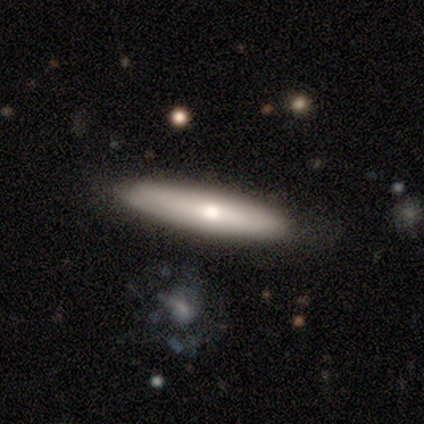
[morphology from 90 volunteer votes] Q: Smooth or featured?
A: featured or disk (46%); runner-up: smooth (42%)
Q: Edge-on disk?
A: yes (78%); runner-up: no (22%)
Q: Edge-on bulge?
A: rounded (72%); runner-up: none (22%)
Q: Merging?
A: none (78%); runner-up: minor disturbance (15%)